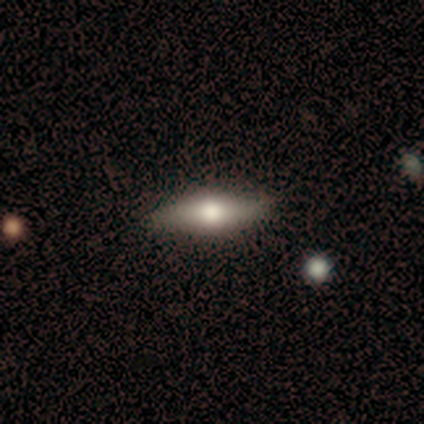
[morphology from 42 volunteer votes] Smooth or featured? 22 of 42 (52%) said featured or disk. Edge-on disk? 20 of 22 (91%) said yes. Edge-on bulge? 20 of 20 (100%) said rounded. Merging? 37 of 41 (90%) said none.